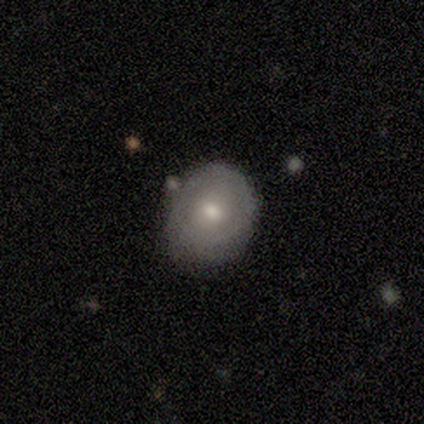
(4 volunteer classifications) smooth 50% (tied), featured or disk 50% (tied), star or artifact 0%. Down the decision tree: how rounded — round (100%); merging — none (75%).